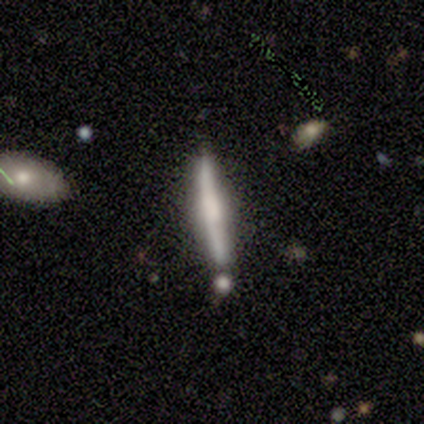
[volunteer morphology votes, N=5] This is likely a featured or disk galaxy (60%). It is clearly viewed edge-on (100%). Edge-on bulge: likely boxy (67%). Merging: clearly none (100%).